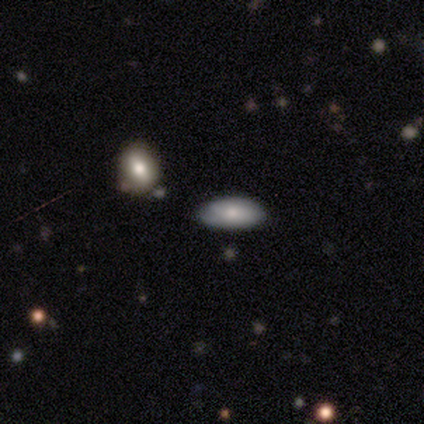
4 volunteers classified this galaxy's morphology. smooth 75%, featured or disk 25%, star or artifact 0%. Down the decision tree: how rounded — in between (100%); merging — none (75%).